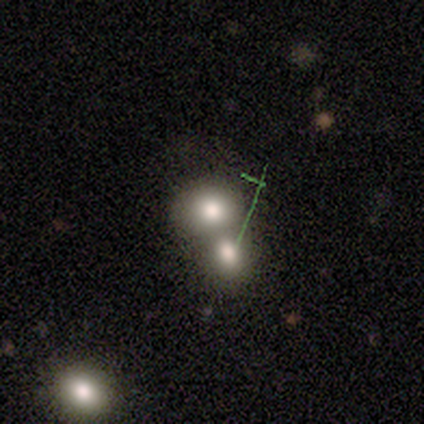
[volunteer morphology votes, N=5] Smooth or featured? 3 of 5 (60%) said smooth. How rounded? 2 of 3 (67%) said in between. Merging? 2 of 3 (67%) said merger.